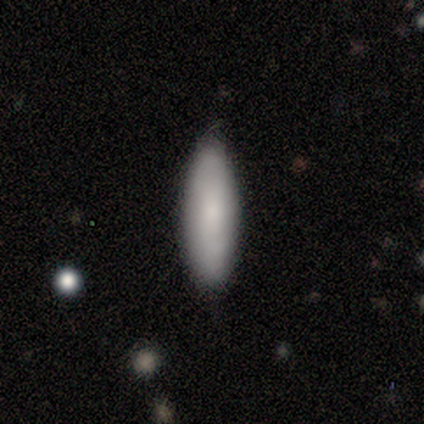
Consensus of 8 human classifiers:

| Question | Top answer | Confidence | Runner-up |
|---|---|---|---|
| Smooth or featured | smooth | 75% | featured or disk (25%) |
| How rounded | in between | 50% | tied: cigar-shaped (50%) |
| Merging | none | 88% | minor disturbance (12%) |